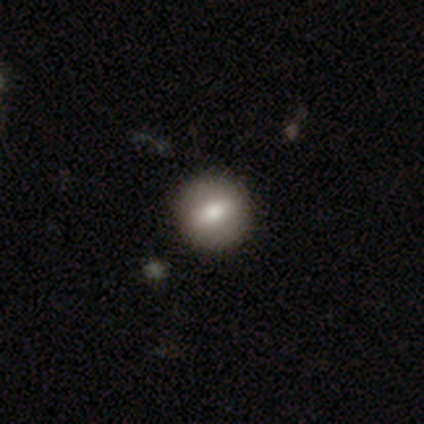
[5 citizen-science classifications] A smooth galaxy with no disk features (100%) that is round (80%).

Vote fractions:
- Smooth or featured? smooth: 100% / featured or disk: 0% / star or artifact: 0%
- How rounded? round: 80% / in between: 20% / cigar-shaped: 0%
- Merging? none: 80% / minor disturbance: 20% / major disturbance: 0% / merger: 0%